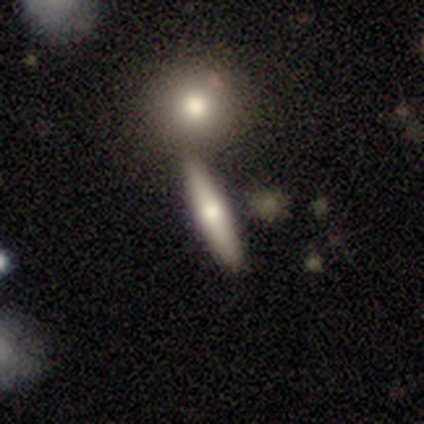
Smooth or featured: featured or disk — 50% (smooth — 47%)
Edge-on disk: yes — 95% (no — 5%)
Edge-on bulge: rounded — 72% (none — 22%)
Merging: none — 62% (merger — 22%)